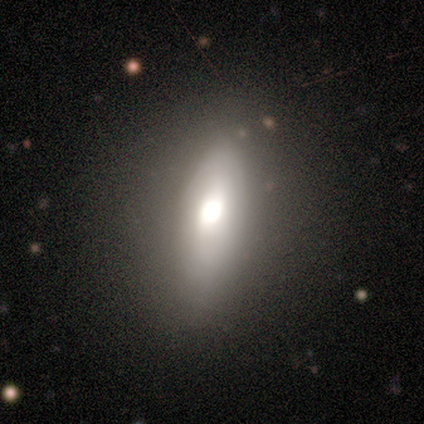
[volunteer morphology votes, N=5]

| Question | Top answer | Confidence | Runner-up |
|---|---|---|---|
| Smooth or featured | smooth | 80% | featured or disk (20%) |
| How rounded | in between | 75% | cigar-shaped (25%) |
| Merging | none | 100% | — |